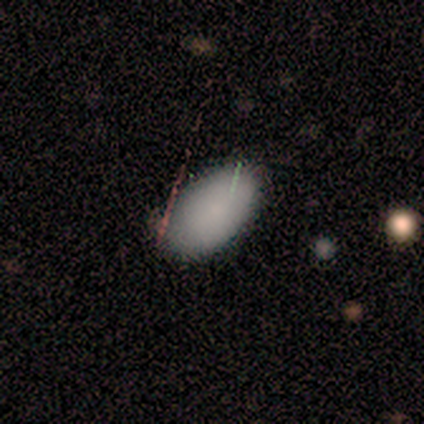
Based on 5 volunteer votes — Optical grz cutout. It shows a smooth galaxy with no disk features (80%) that is in between round and cigar-shaped (100%). Merging: none (75%).